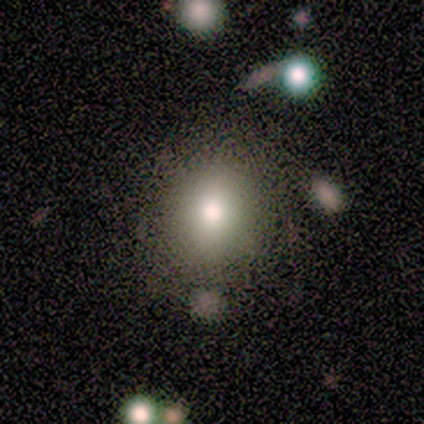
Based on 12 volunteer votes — Overall: smooth (42%; featured or disk 33%). How rounded: round (80%). Merging: none (89%).